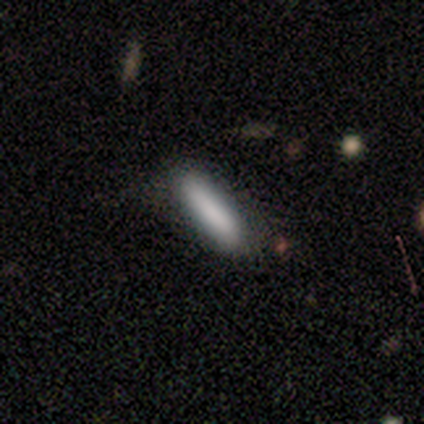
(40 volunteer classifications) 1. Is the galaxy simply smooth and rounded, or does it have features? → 88% smooth, 8% featured or disk, 5% star or artifact.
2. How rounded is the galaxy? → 83% cigar-shaped, 17% in between, 0% round.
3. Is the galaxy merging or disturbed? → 71% none, 24% minor disturbance, 3% major disturbance, 3% merger.